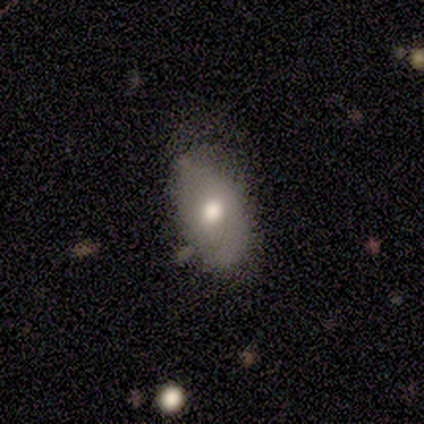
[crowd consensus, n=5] This is likely a featured or disk galaxy (60%). It is clearly not viewed edge-on (100%). Bar: clearly no (100%). Spiral arm pattern: likely yes (67%). Spiral arm count: possibly 2 (50%, tied with can't tell). Spiral winding: possibly tight (50%, tied with loose). Central bulge: likely moderate (67%). Merging: likely none (60%).